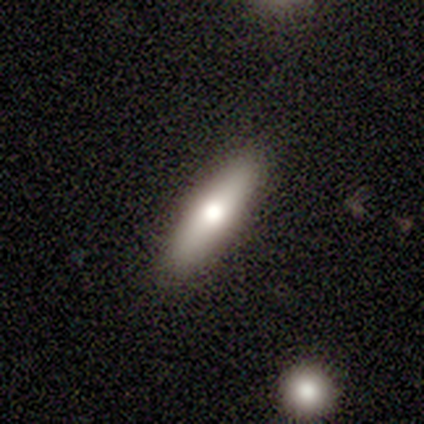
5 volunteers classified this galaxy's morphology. smooth-or-featured: smooth: 100% | featured or disk: 0% | star or artifact: 0%
  how-rounded: cigar-shaped: 60% | in between: 40% | round: 0%
  merging: none: 40% (tied) | minor disturbance: 40% (tied) | merger: 20% | major disturbance: 0%